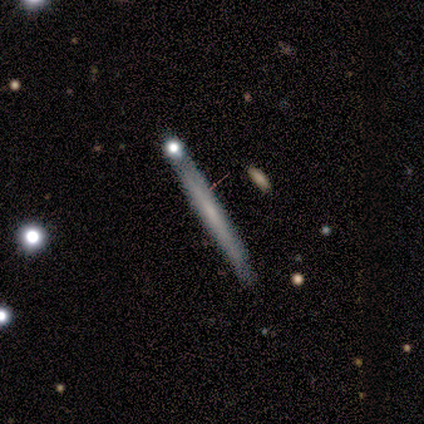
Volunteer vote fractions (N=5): Morphology: type=smooth (40%, tied with featured or disk); roundness=round (50%, tied with cigar-shaped); merging=none (75%).